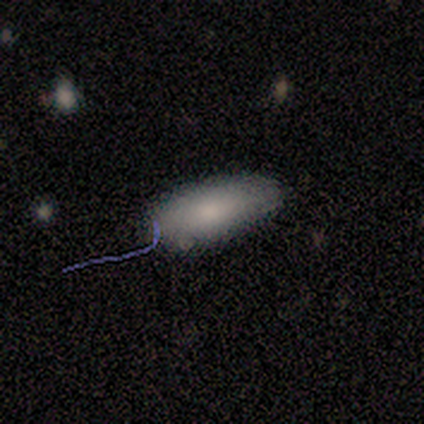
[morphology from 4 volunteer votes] Overall: smooth (75%). How rounded: in between (100%). Merging: none (67%; minor disturbance 33%).